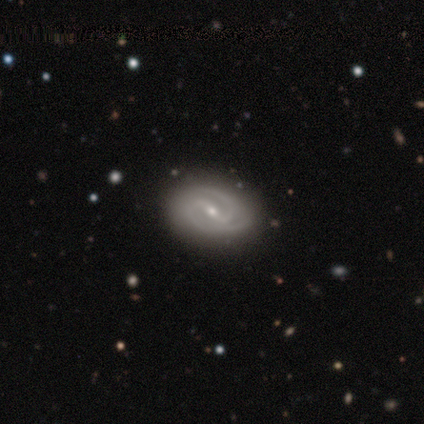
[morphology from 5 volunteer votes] Volunteers were most divided on "bar": strong: 60%, weak: 40%, no: 0%. More confident: smooth or featured — featured or disk (100%); edge-on disk — no (100%); spiral arms — yes (100%); merging — none (100%); spiral winding — medium (80%); bulge size — moderate (80%); spiral arm count — 2 (60%).